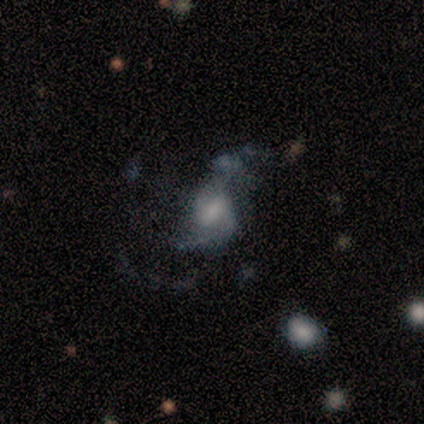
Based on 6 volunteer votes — featured or disk 67%, smooth 17%, star or artifact 17%. Down the decision tree: edge-on disk — no (100%); bar — no (75%); spiral arms — yes (100%); spiral arm count — 2 (50%); spiral winding — loose (75%); bulge size — moderate (75%); merging — minor disturbance (40%, tied with major disturbance).